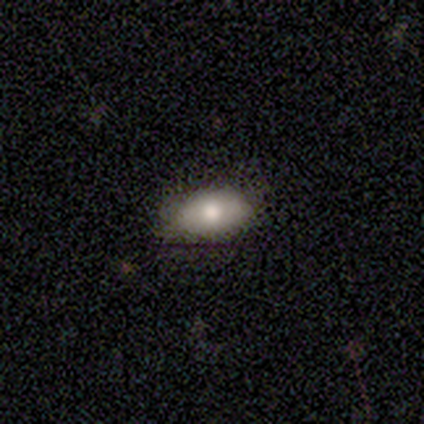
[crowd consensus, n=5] smooth 100%, featured or disk 0%, star or artifact 0%. Down the decision tree: how rounded — in between (100%); merging — none (60%).